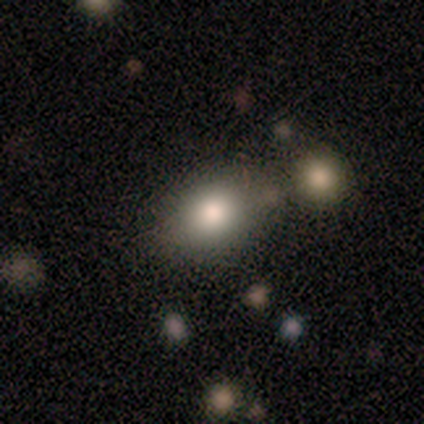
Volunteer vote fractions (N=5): smooth 40% (tied), star or artifact 40% (tied), featured or disk 20%. Down the decision tree: how rounded — in between (100%); merging — none (100%).